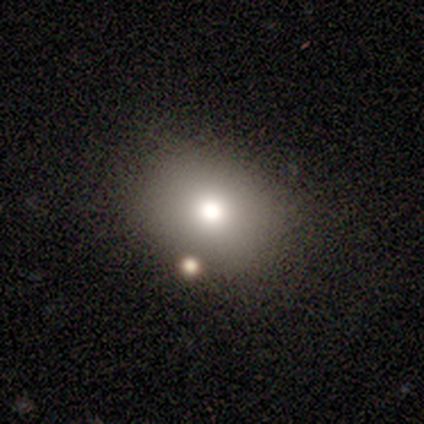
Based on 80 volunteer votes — smooth 78%, star or artifact 14%, featured or disk 9%. Down the decision tree: how rounded — round (50%, tied with in between); merging — none (42%).